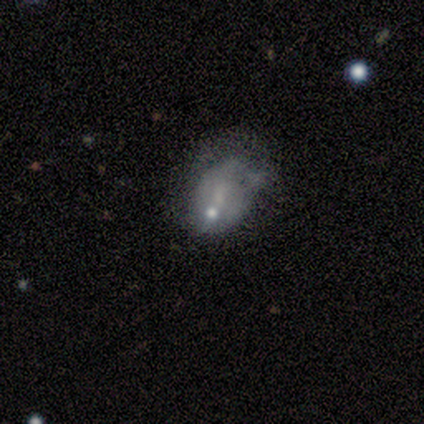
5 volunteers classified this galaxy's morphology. smooth-or-featured: featured or disk: 60% | smooth: 40% | star or artifact: 0%
  disk-edge-on: no: 100% | yes: 0%
    bar: no: 67% | weak: 33% | strong: 0%
    has-spiral-arms: no: 100% | yes: 0%
    bulge-size: small: 67% | moderate: 33% | dominant: 0% | large: 0% | none: 0%
  merging: minor disturbance: 40% | none: 20% | major disturbance: 20% | merger: 20%